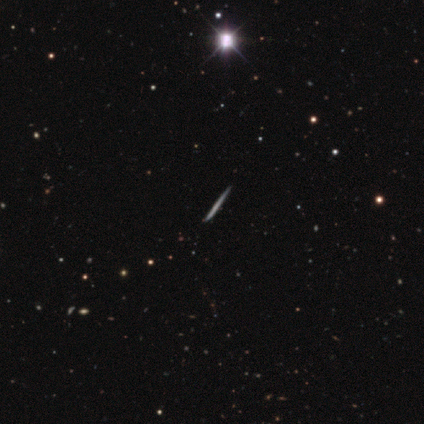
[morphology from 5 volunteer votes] This appears to be a featured or disk galaxy (60%) viewed edge-on (100%) with no central bulge (100%). Merging: none (100%).